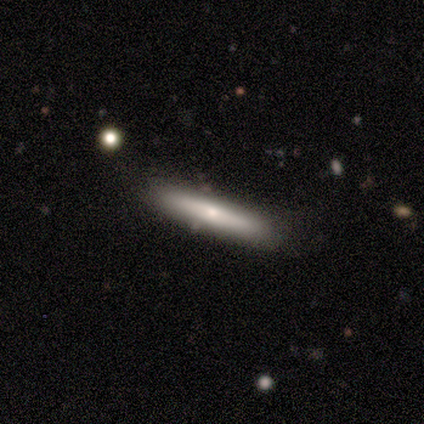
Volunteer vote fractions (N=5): Morphology: type=smooth (80%); roundness=cigar-shaped (75%); merging=none (80%).